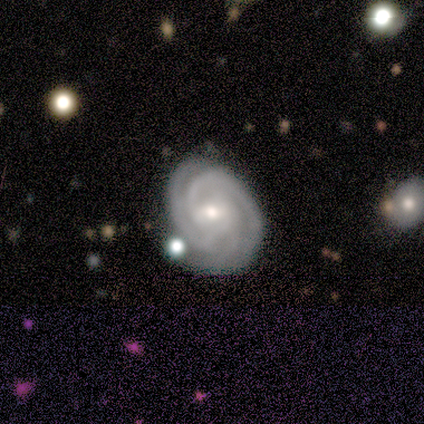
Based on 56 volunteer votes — A featured or disk galaxy (91%) with a weak bar (60%), 3 (42%) tight (75%) spiral arms (96%) and a moderate central bulge (56%). Merging: none (69%).